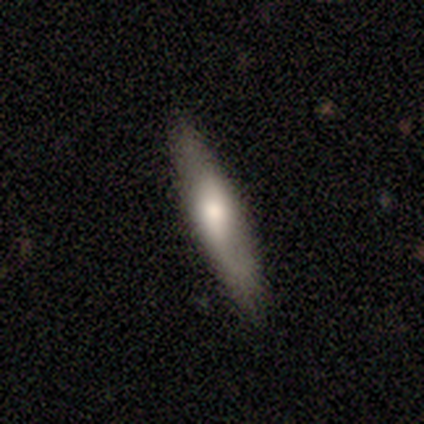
smooth 80%, star or artifact 20%, featured or disk 0%. Down the decision tree: how rounded — cigar-shaped (100%); merging — none (100%).